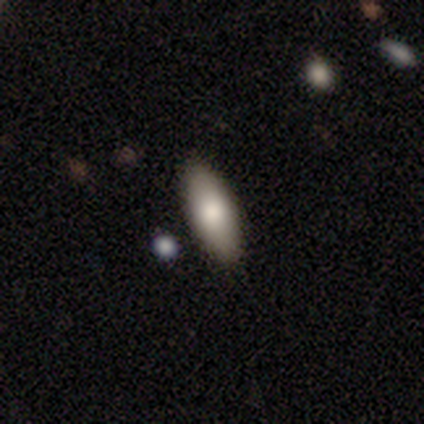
This appears to be a smooth galaxy with no disk features (87%) that is in between round and cigar-shaped (79%). Merging: none (95%).